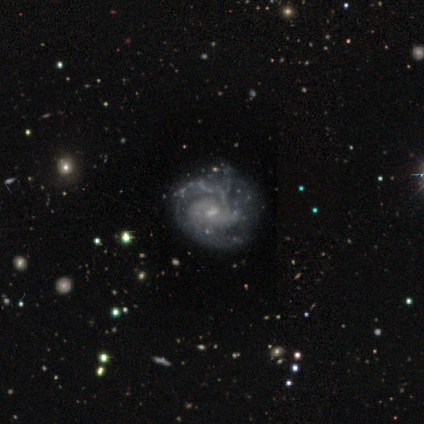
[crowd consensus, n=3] Overall: featured or disk (100%). Edge-on disk: no (100%). Bar: weak (67%; no 33%). Spiral arms: yes (67%; no 33%). Spiral arm count: 2 (50%, tied with can't tell). Spiral winding: tight (50%, tied with medium). Bulge size: none (67%; small 33%). Merging: none (67%; major disturbance 33%).